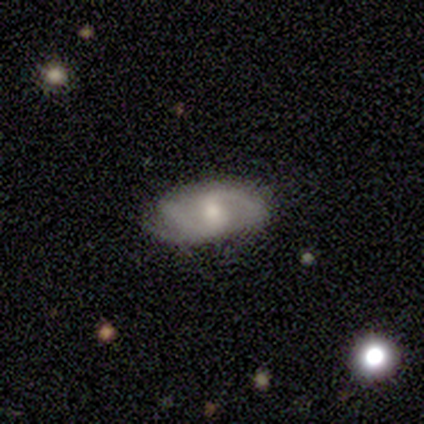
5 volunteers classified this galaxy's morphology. featured or disk 60%, smooth 40%, star or artifact 0%. Down the decision tree: edge-on disk — no (100%); bar — weak (100%); spiral arms — yes (100%); spiral arm count — 2 (100%); spiral winding — medium (67%); bulge size — small (67%); merging — none (60%).